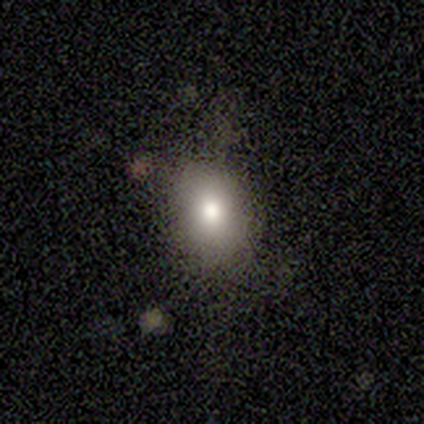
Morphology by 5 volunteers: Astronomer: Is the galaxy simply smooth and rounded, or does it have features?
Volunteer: smooth — 80%.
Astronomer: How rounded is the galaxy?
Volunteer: in between — 50%.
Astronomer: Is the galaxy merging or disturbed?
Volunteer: minor disturbance — 60% (runner-up: none, 40%).